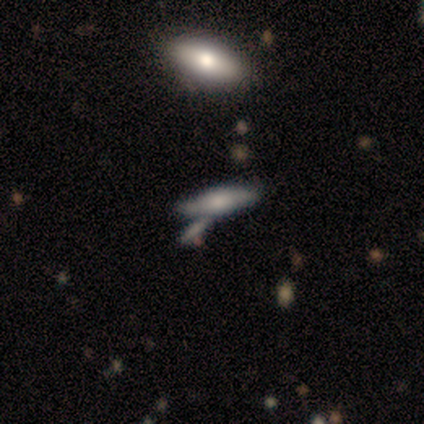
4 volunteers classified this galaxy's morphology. Q: Smooth or featured?
A: smooth (50%); tied with: featured or disk (50%)
Q: How rounded?
A: in between (50%); tied with: cigar-shaped (50%)
Q: Merging?
A: none (50%); runner-up: minor disturbance (25%)